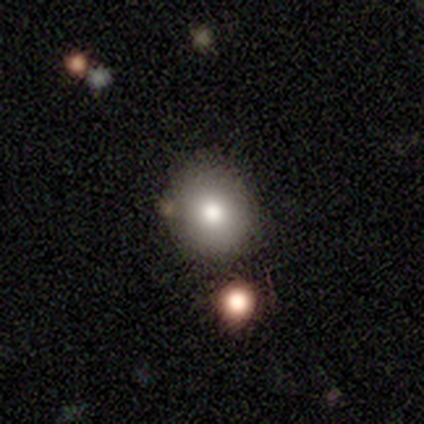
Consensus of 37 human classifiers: A smooth galaxy with no disk features (65%) that is round (71%).

Vote fractions:
- Smooth or featured? smooth: 65% / star or artifact: 22% / featured or disk: 14%
- How rounded? round: 71% / in between: 29% / cigar-shaped: 0%
- Merging? none: 83% / minor disturbance: 7% / merger: 7% / major disturbance: 3%